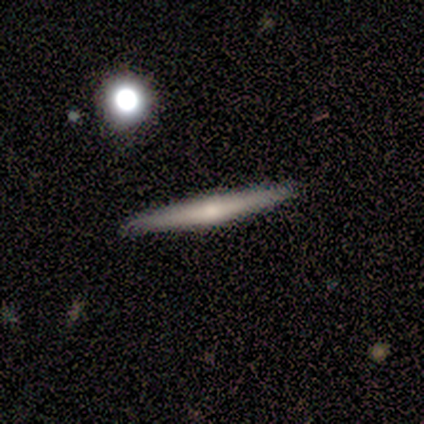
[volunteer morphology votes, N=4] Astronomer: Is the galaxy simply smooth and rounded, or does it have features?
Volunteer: smooth — 50%, tied with featured or disk at 50%.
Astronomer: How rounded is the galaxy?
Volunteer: cigar-shaped — 100%.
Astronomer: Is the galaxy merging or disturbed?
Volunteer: none — 100%.